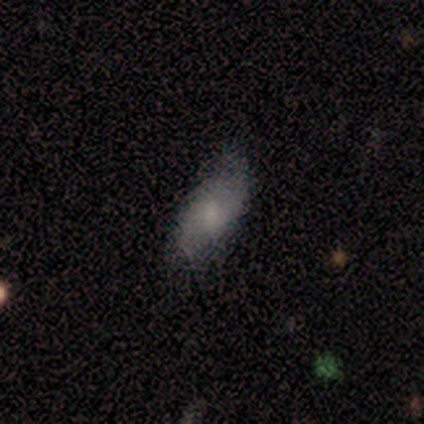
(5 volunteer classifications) Q: Smooth or featured?
A: smooth (60%); runner-up: featured or disk (40%)
Q: How rounded?
A: in between (100%)
Q: Merging?
A: none (100%)